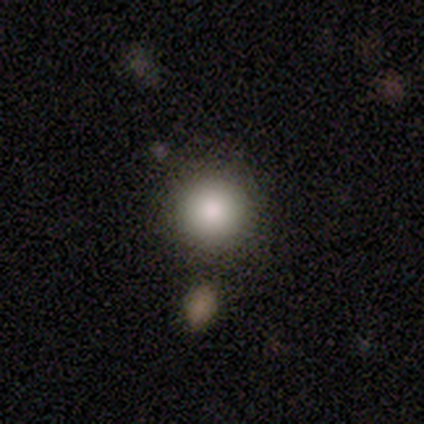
Volunteers were most divided on "smooth or featured": smooth: 80%, featured or disk: 10%, star or artifact: 10%. More confident: how rounded — round (97%); merging — none (83%).